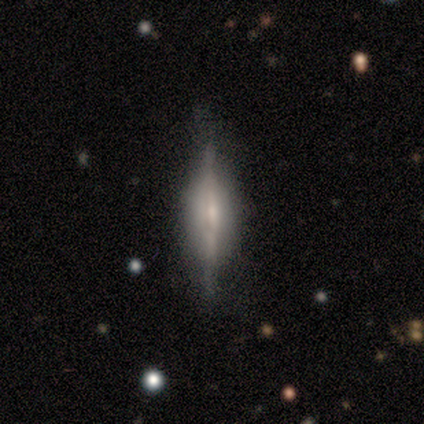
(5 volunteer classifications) Overall: featured or disk (80%). Edge-on disk: yes (100%). Edge-on bulge: rounded (75%). Merging: none (80%).